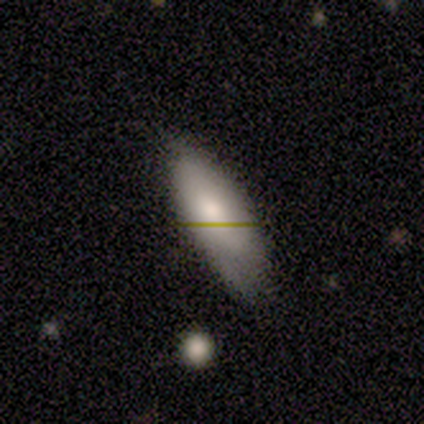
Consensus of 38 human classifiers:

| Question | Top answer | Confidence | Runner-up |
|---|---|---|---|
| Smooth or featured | smooth | 55% | featured or disk (37%) |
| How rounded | in between | 62% | cigar-shaped (38%) |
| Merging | none | 66% | minor disturbance (26%) |